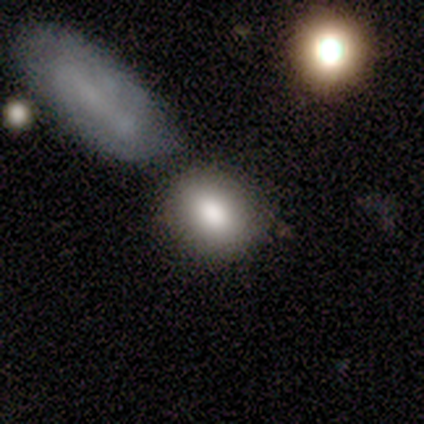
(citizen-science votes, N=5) Overall: smooth (80%). How rounded: in between (75%). Merging: none (75%).